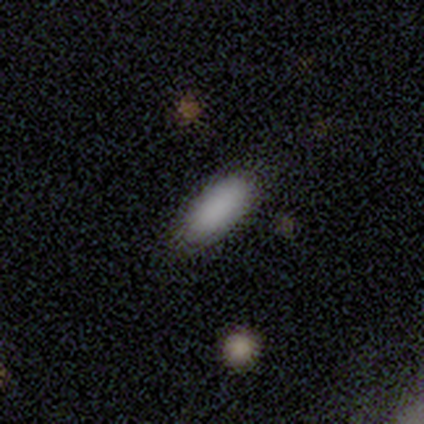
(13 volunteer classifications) Smooth or featured? smooth (92%)
How rounded? in between (92%)
Merging? none (92%)